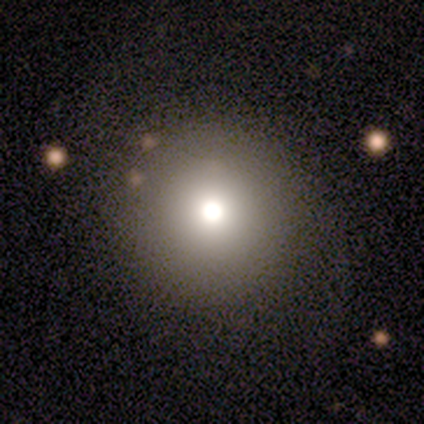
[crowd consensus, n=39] Overall: smooth (64%). How rounded: round (96%). Merging: none (87%).